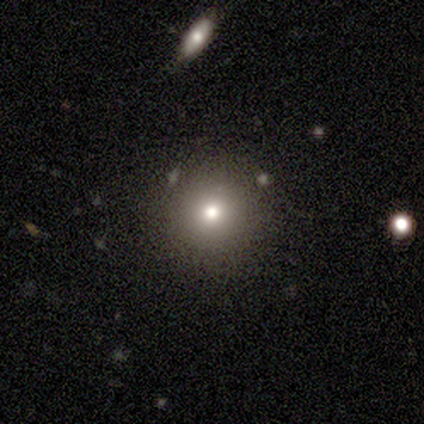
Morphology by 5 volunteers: smooth 60%, featured or disk 20%, star or artifact 20%. Down the decision tree: how rounded — round (100%); merging — none (75%).